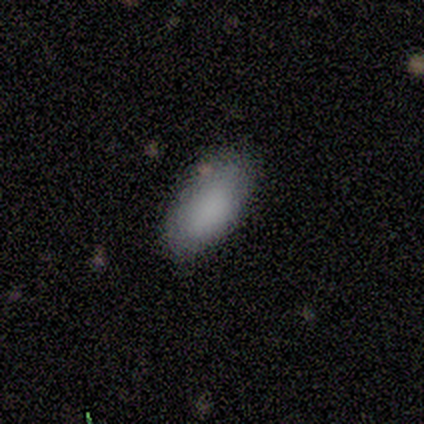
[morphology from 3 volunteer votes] smooth-or-featured: smooth: 67% | star or artifact: 33% | featured or disk: 0%
  how-rounded: in between: 100% | round: 0% | cigar-shaped: 0%
  merging: none: 100% | minor disturbance: 0% | major disturbance: 0% | merger: 0%